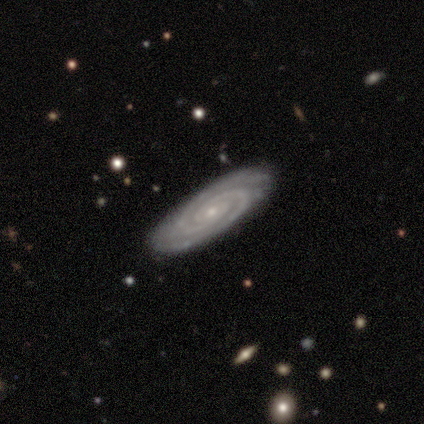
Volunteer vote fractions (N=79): A featured or disk galaxy (97%) with no bar (73%), 2 (78%) tight (91%) spiral arms (99%) and a small central bulge (86%). Merging: none (44%).